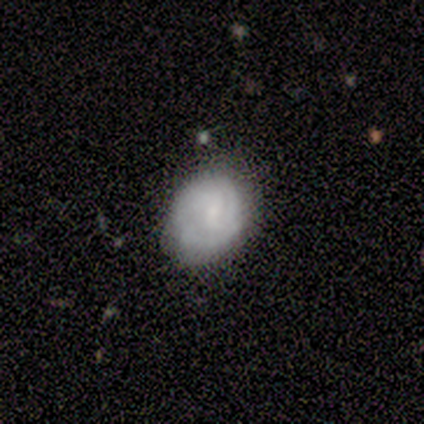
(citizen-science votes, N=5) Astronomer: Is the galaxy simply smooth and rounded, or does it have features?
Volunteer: smooth — 60% (runner-up: featured or disk, 40%).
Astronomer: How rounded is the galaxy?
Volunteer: in between — 100%.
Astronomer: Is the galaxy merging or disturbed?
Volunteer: none — 100%.